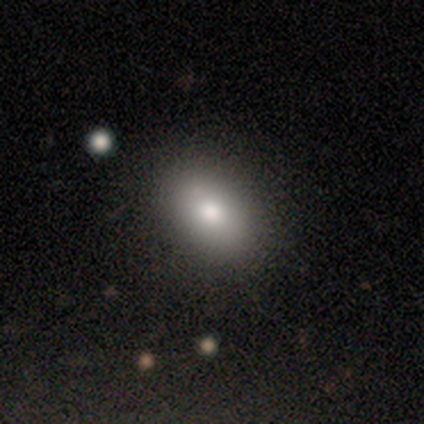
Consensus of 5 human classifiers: Morphology: type=smooth (100%); roundness=in between (100%); merging=none (100%).